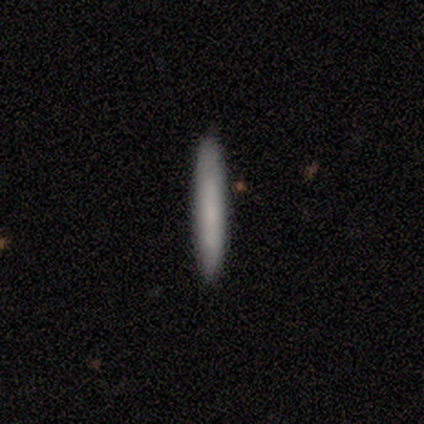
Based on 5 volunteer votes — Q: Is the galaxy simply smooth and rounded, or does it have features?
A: smooth — 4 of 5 (80%).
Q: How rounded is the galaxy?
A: cigar-shaped — 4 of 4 (100%).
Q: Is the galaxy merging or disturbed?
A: none — 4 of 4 (100%).